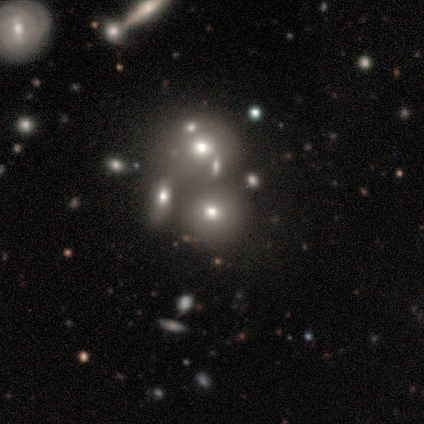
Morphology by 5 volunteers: A featured or disk galaxy (40%, tied with star or artifact) with no bar (100%), no spiral arms (100%) and a dominant central bulge (50%, tied with small). Merging: none (100%).